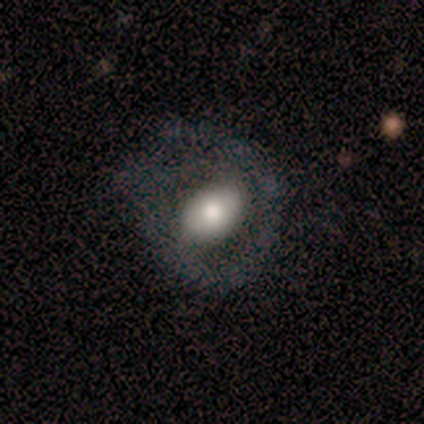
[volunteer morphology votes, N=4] This appears to be a smooth galaxy with no disk features (50%, tied with featured or disk) that is in between round and cigar-shaped (100%). Merging: none (75%).